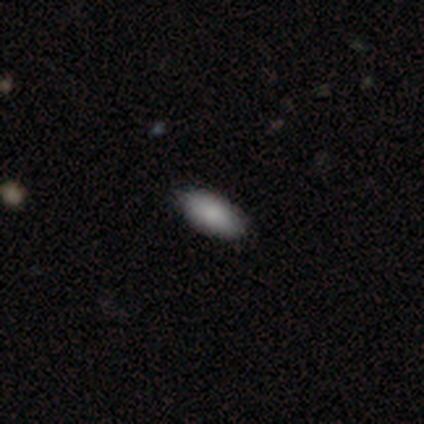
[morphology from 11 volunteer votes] Q: Smooth or featured?
A: smooth (73%); runner-up: star or artifact (18%)
Q: How rounded?
A: in between (100%)
Q: Merging?
A: none (100%)